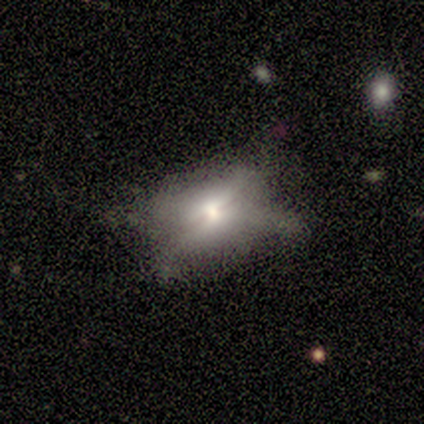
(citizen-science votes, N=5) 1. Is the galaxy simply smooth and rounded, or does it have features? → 40% smooth (tied), 40% featured or disk (tied), 20% star or artifact.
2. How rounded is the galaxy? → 50% round (tied), 50% in between (tied), 0% cigar-shaped.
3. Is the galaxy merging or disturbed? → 50% minor disturbance (tied), 50% major disturbance (tied), 0% none, 0% merger.